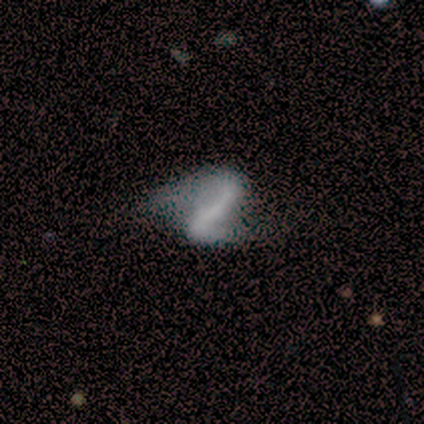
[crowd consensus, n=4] smooth-or-featured: featured or disk: 75% | smooth: 25% | star or artifact: 0%
  disk-edge-on: no: 100% | yes: 0%
    bar: strong: 67% | weak: 33% | no: 0%
    has-spiral-arms: yes: 100% | no: 0%
      spiral-winding: medium: 67% | loose: 33% | tight: 0%
      spiral-arm-count: 2: 100% | 1: 0% | 3: 0% | 4: 0% | more than 4: 0% | can't tell: 0%
    bulge-size: none: 67% | small: 33% | dominant: 0% | large: 0% | moderate: 0%
  merging: major disturbance: 50% | none: 25% | merger: 25% | minor disturbance: 0%